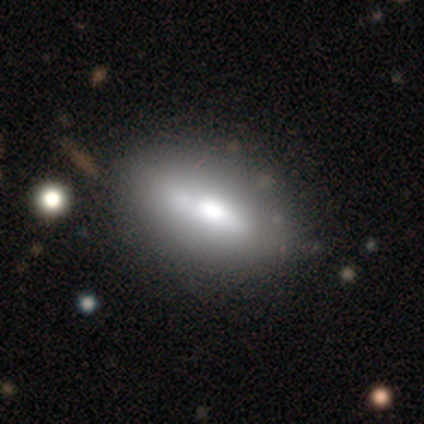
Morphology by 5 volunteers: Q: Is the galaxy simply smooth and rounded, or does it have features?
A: smooth — 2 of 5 (40%, tied with featured or disk).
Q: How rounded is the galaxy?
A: in between — 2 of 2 (100%).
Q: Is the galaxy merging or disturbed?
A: none — 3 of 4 (75%).